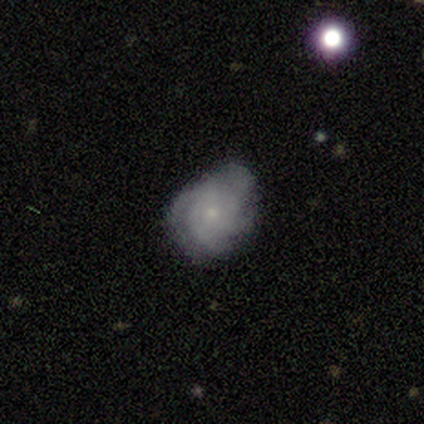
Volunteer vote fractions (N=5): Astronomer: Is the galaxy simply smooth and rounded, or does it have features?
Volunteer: featured or disk — 60% (runner-up: smooth, 40%).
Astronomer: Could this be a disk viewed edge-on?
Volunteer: no — 100%.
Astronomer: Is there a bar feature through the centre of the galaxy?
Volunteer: no — 100%.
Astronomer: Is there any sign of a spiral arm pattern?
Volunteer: yes — 100%.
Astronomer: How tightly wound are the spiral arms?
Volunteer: medium — 67%.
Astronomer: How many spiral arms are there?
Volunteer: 3 — 33%, tied with 4 and can't tell at 33%.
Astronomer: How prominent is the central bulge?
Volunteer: small — 100%.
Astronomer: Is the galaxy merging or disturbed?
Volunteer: none — 60%.